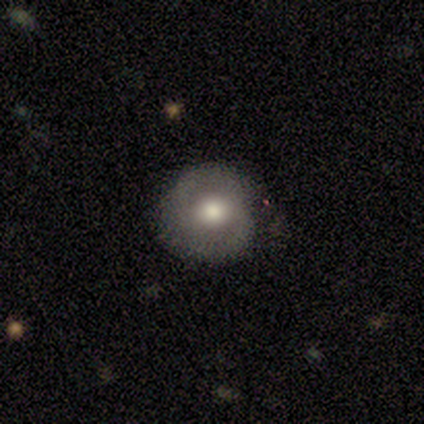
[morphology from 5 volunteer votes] This appears to be a smooth galaxy with no disk features (40%, tied with featured or disk) that is round (100%). Merging: none (100%).